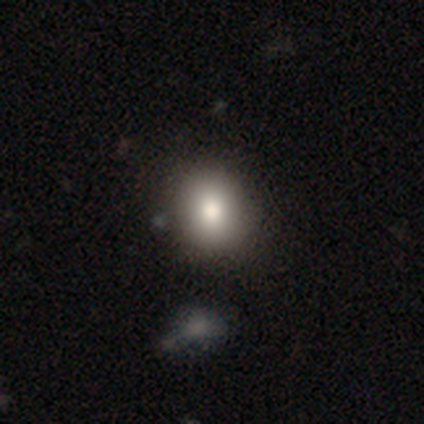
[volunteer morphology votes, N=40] smooth-or-featured: smooth: 88% | star or artifact: 8% | featured or disk: 5%
  how-rounded: round: 69% | in between: 31% | cigar-shaped: 0%
  merging: none: 73% | minor disturbance: 5% | major disturbance: 0% | merger: 0%